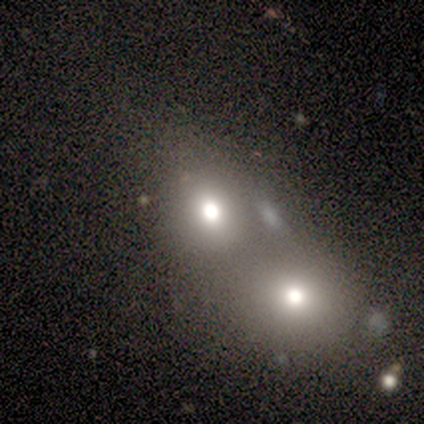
Morphology: type=smooth (80%); roundness=round (75%); merging=merger (60%).